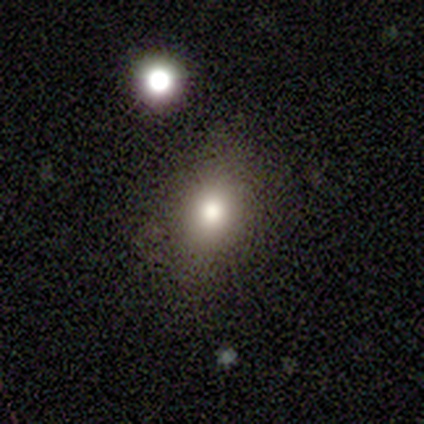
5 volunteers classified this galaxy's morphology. Q: Smooth or featured?
A: smooth (100%)
Q: How rounded?
A: in between (60%); runner-up: round (20%)
Q: Merging?
A: none (80%); runner-up: minor disturbance (20%)